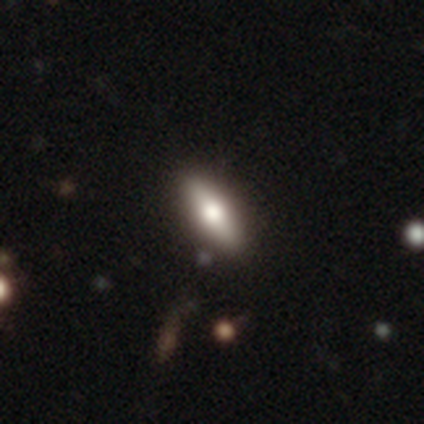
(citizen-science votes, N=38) This is likely a smooth galaxy (66%). How rounded: possibly in between (52%). Merging: clearly none (86%).